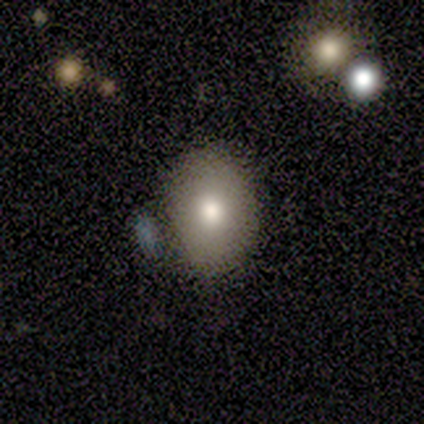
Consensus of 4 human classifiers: A smooth galaxy with no disk features (50%) that is round (50%, tied with in between).

Vote fractions:
- Smooth or featured? smooth: 50% / featured or disk: 25% / star or artifact: 25%
- How rounded? round: 50% (tied) / in between: 50% (tied) / cigar-shaped: 0%
- Merging? none: 33% (tied) / minor disturbance: 33% (tied) / merger: 33% (tied) / major disturbance: 0%